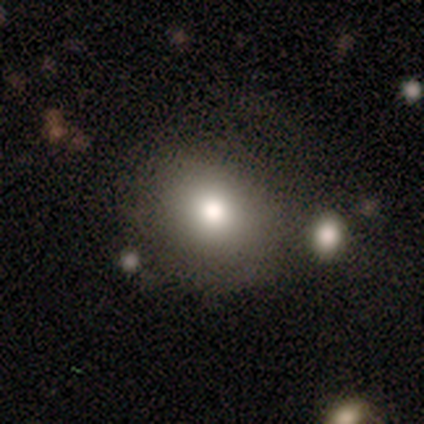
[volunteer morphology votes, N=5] smooth-or-featured: smooth: 60% | featured or disk: 40% | star or artifact: 0%
  how-rounded: round: 100% | in between: 0% | cigar-shaped: 0%
  merging: none: 60% | minor disturbance: 20% | merger: 20% | major disturbance: 0%